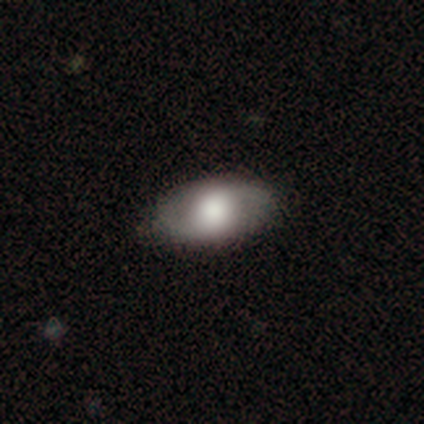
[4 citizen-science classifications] Smooth or featured? 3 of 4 (75%) said smooth. How rounded? 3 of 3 (100%) said in between. Merging? 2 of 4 (50%) said none.